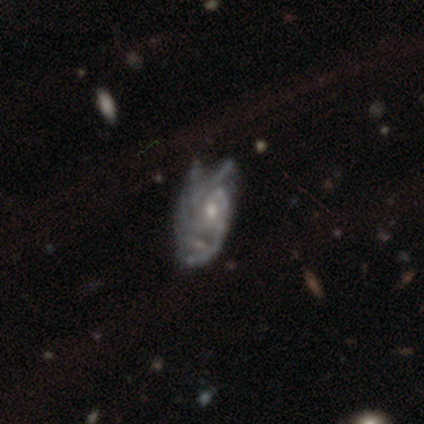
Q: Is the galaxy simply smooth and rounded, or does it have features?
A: featured or disk — 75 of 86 (87%).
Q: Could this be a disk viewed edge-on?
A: no — 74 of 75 (99%).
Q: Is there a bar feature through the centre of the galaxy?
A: no — 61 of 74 (82%).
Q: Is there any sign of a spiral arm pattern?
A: yes — 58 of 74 (78%).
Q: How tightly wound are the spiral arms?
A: tight — 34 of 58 (59%).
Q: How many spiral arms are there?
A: can't tell — 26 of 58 (45%).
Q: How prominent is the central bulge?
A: small — 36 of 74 (49%).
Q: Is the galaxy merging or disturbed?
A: none — 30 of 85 (35%).